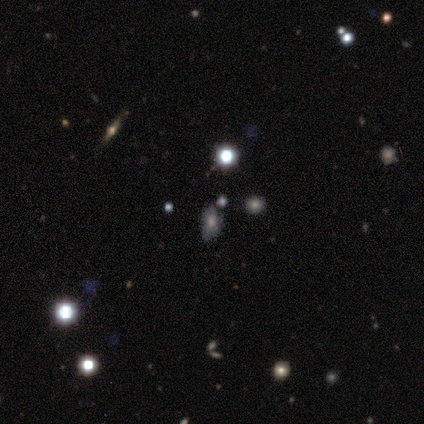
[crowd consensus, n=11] Overall: star or artifact (45%; smooth 36%).